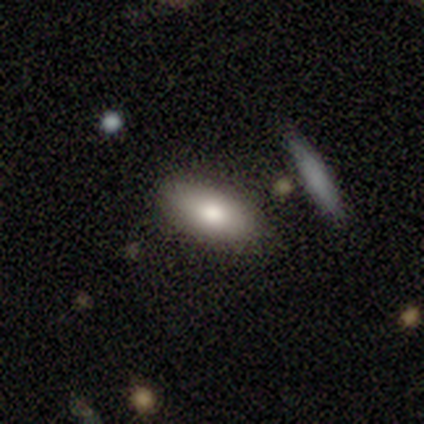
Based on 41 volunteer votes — Smooth or featured? smooth (73%)
How rounded? in between (97%)
Merging? none (86%)